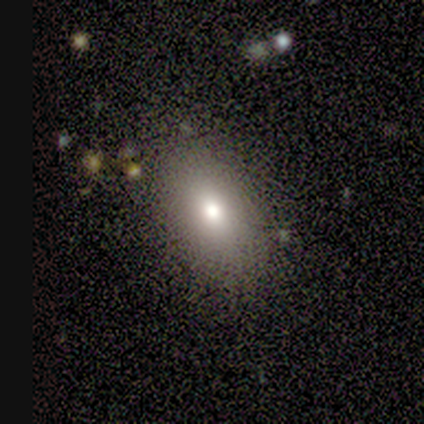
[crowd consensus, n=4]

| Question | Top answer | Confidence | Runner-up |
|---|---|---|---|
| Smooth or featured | smooth | 75% | star or artifact (25%) |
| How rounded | in between | 100% | — |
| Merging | none | 100% | — |